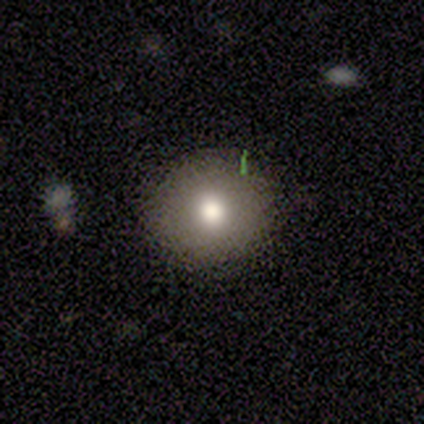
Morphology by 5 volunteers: A smooth galaxy with no disk features (80%) that is round (100%). Merging: none (80%).